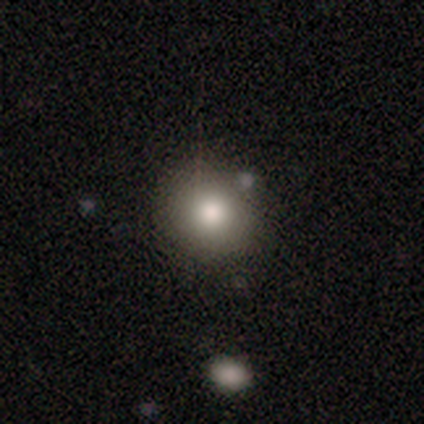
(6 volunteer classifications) smooth 83%, featured or disk 17%, star or artifact 0%. Down the decision tree: how rounded — round (80%); merging — none (67%).